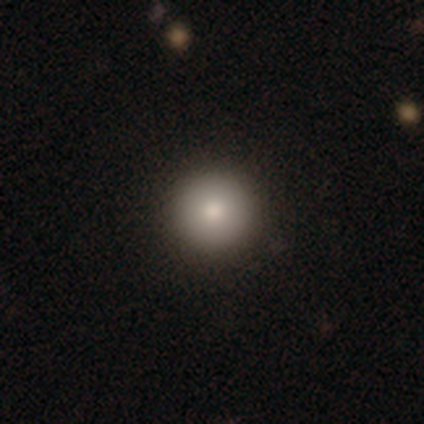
Volunteers were most divided on "smooth or featured": smooth: 89%, featured or disk: 6%, star or artifact: 6%. More confident: how rounded — round (97%); merging — none (94%).